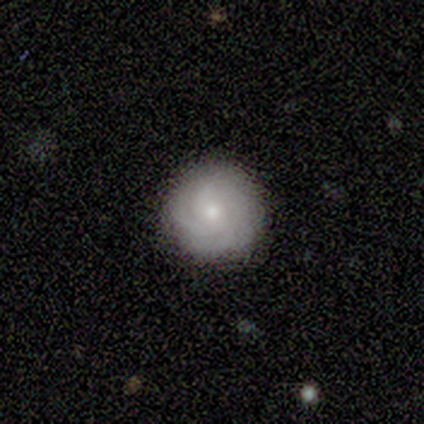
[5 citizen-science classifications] featured or disk 80%, smooth 20%, star or artifact 0%. Down the decision tree: edge-on disk — no (100%); bar — no (100%); spiral arms — yes (100%); spiral arm count — 3 (75%); spiral winding — tight (75%); bulge size — small (75%); merging — none (80%).